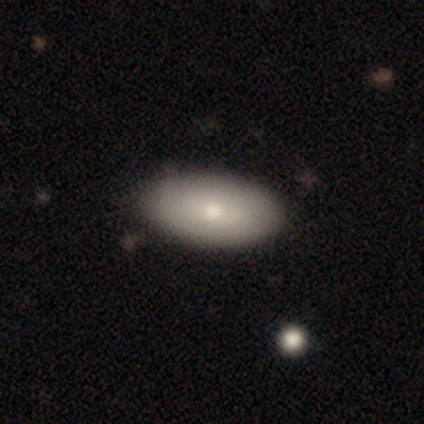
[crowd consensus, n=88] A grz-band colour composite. It shows a smooth galaxy with no disk features (67%) that is in between round and cigar-shaped (100%). Merging: none (84%).